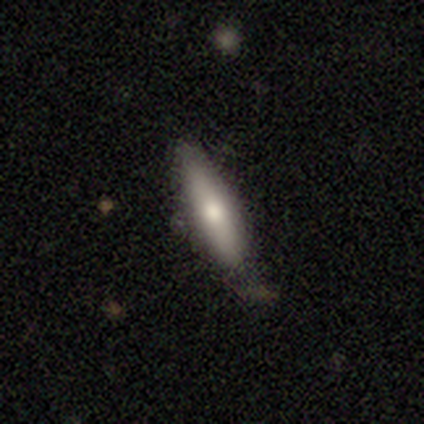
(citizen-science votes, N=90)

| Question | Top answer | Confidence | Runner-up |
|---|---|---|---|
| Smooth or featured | smooth | 73% | featured or disk (21%) |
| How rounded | cigar-shaped | 88% | in between (12%) |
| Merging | none | 72% | minor disturbance (22%) |